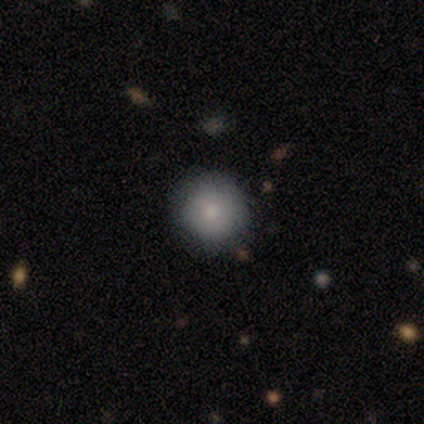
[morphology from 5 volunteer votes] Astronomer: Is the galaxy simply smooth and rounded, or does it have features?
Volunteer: smooth — 100%.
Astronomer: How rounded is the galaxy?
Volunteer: round — 100%.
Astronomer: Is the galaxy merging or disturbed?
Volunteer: none — 60% (runner-up: minor disturbance, 40%).